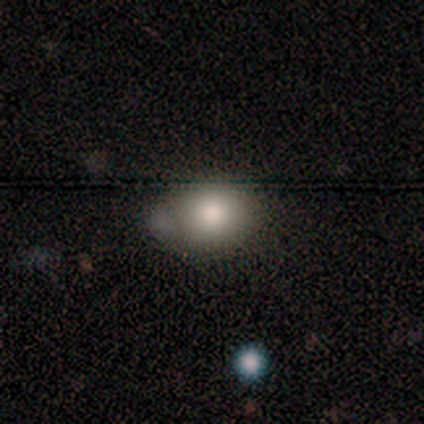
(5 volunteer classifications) Smooth or featured? 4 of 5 (80%) said smooth. How rounded? 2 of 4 (50%, tied with in between) said round. Merging? 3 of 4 (75%) said none.